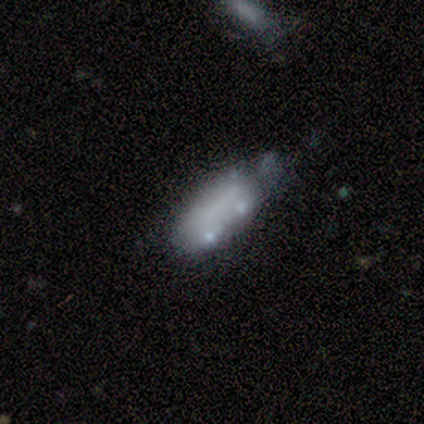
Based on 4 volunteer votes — Morphology: type=smooth (75%); roundness=in between (100%); merging=none (50%).